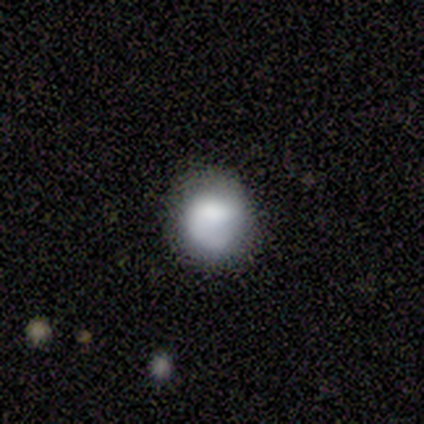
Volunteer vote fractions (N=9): This appears to be a smooth galaxy with no disk features (56%) that is round (60%). Merging: none (88%).